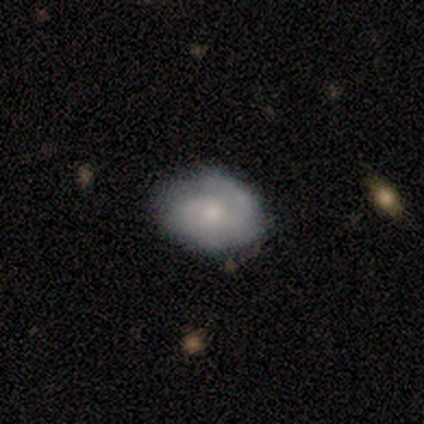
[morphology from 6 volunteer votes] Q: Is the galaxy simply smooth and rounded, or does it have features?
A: smooth — 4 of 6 (67%).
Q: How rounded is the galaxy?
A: in between — 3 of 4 (75%).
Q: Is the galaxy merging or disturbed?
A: none — 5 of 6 (83%).